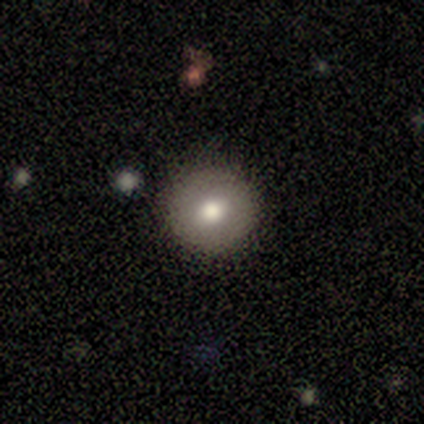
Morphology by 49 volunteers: A smooth galaxy with no disk features (69%) that is round (94%). Merging: none (87%).